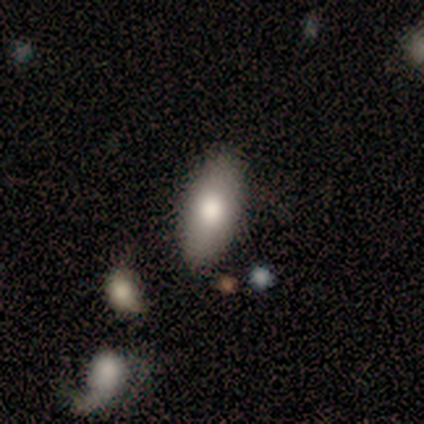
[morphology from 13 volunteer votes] A smooth galaxy with no disk features (77%) that is in between round and cigar-shaped (90%). Merging: none (77%).